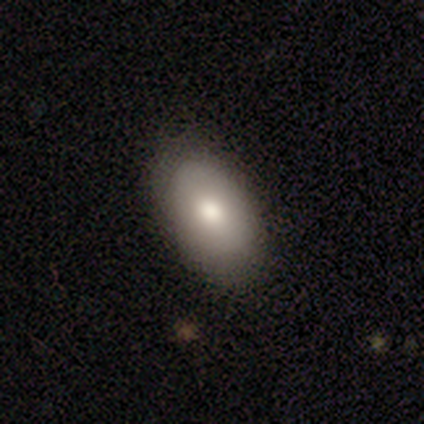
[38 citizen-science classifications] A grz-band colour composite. It shows a smooth galaxy with no disk features (79%) that is in between round and cigar-shaped (97%). Merging: none (78%).